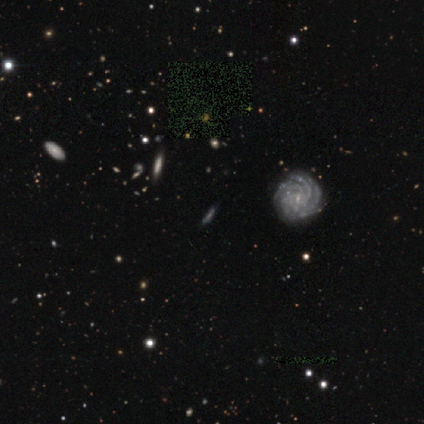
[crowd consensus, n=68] smooth_or_featured: featured or disk (p=0.63) [alt: star or artifact p=0.19]
disk_edge_on: no (p=0.65) [alt: yes p=0.35]
bar: no (p=0.68) [alt: weak p=0.21]
has_spiral_arms: yes (p=0.93) [alt: no p=0.07]
spiral_winding: tight (p=0.73) [alt: medium p=0.23]
spiral_arm_count: more than 4 (p=0.38) [alt: can't tell p=0.31]
bulge_size: small (p=0.75) [alt: none p=0.11]
merging: none (p=0.82) [alt: minor disturbance p=0.13]